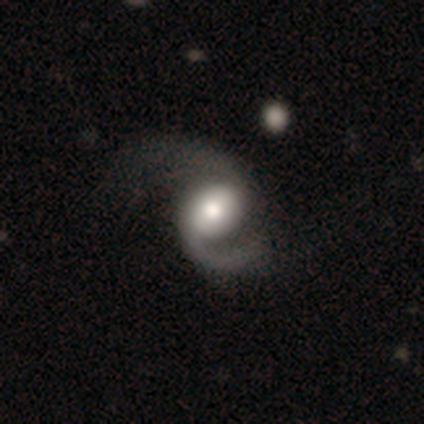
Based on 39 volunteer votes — Overall: featured or disk (82%). Edge-on disk: no (100%). Bar: no (75%). Spiral arms: yes (97%). Spiral arm count: 2 (90%). Spiral winding: medium (52%; loose 39%). Bulge size: large (50%; moderate 28%). Merging: minor disturbance (30%, tied with major disturbance).